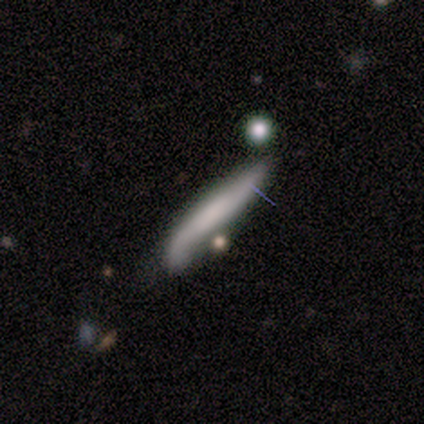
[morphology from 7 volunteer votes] type=smooth (57%); roundness=cigar-shaped (100%); merging=none (57%).